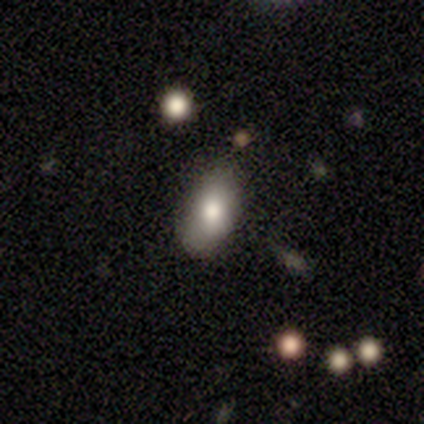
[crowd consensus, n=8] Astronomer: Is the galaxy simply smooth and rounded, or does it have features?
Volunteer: smooth — 88%.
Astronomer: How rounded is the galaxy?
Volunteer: in between — 71%.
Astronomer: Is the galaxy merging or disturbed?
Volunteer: none — 88%.